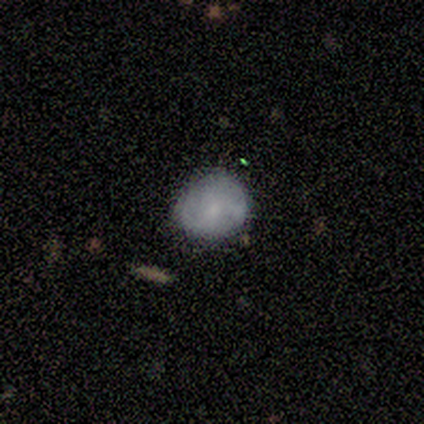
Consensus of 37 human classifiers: A smooth galaxy with no disk features (54%) that is round (80%).

Vote fractions:
- Smooth or featured? smooth: 54% / featured or disk: 35% / star or artifact: 11%
- How rounded? round: 80% / in between: 20% / cigar-shaped: 0%
- Merging? none: 73% / minor disturbance: 21% / major disturbance: 6% / merger: 0%